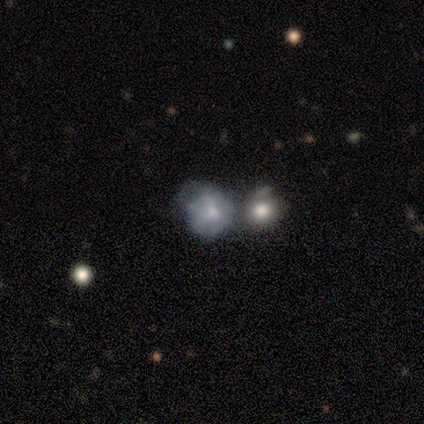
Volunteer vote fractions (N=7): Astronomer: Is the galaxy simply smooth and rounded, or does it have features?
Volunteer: featured or disk — 57% (runner-up: smooth, 43%).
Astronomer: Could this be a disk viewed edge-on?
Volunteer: no — 100%.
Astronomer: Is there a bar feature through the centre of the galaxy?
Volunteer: no — 75%.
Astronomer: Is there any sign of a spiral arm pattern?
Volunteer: no — 100%.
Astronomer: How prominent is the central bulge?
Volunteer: small — 75%.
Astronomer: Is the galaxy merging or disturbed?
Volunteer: merger — 71%.